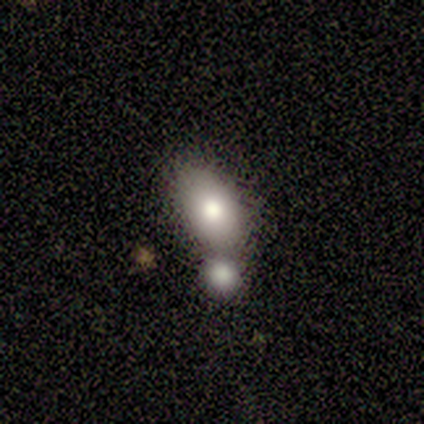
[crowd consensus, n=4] Morphology: type=smooth (75%); roundness=in between (100%); merging=none (67%).